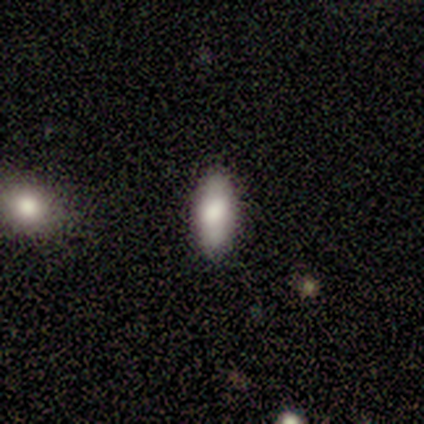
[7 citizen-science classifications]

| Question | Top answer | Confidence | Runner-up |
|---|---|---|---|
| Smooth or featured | smooth | 86% | featured or disk (14%) |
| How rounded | in between | 83% | cigar-shaped (17%) |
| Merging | none | 86% | minor disturbance (14%) |